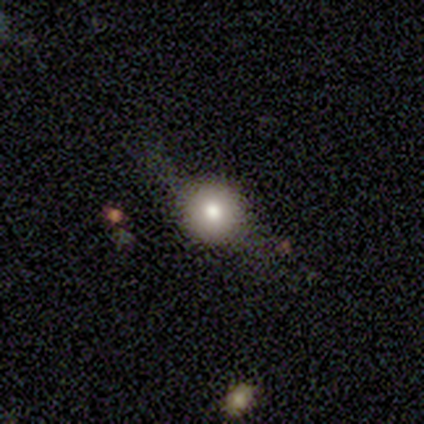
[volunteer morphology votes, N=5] Smooth or featured? smooth (60%)
How rounded? round (100%)
Merging? none (75%)